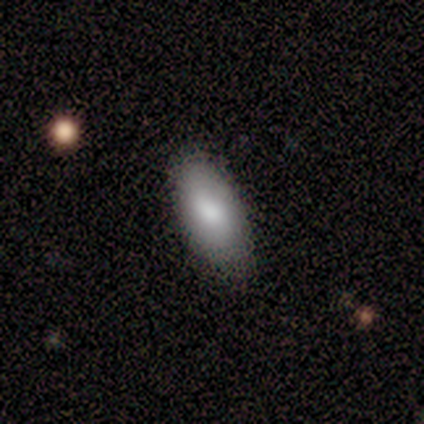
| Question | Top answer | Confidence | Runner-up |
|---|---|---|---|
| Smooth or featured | smooth | 84% | featured or disk (8%) |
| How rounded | in between | 97% | cigar-shaped (3%) |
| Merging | none | 74% | minor disturbance (23%) |